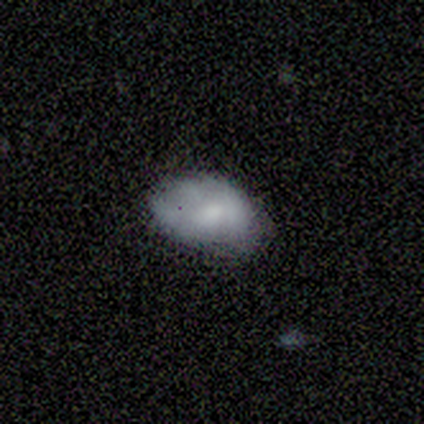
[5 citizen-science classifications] smooth-or-featured: smooth: 80% | featured or disk: 20% | star or artifact: 0%
  how-rounded: in between: 100% | round: 0% | cigar-shaped: 0%
  merging: none: 40% (tied) | minor disturbance: 40% (tied) | major disturbance: 20% | merger: 0%